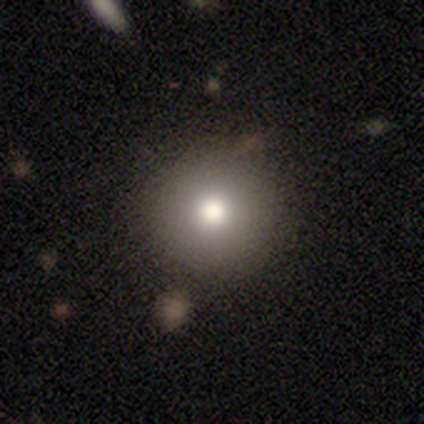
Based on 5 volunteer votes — smooth 100%, featured or disk 0%, star or artifact 0%. Down the decision tree: how rounded — round (100%); merging — none (80%).